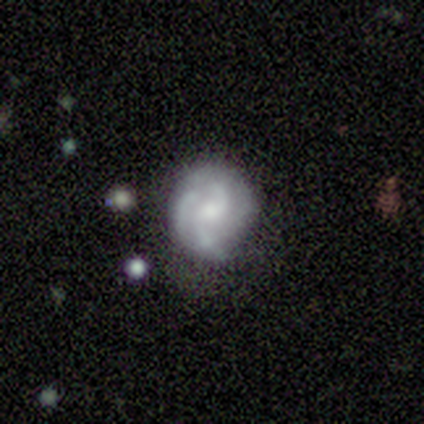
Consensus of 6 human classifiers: Morphology: type=featured or disk (83%); edge-on=no (100%); bar=no (80%); spiral arms=yes (60%); winding=medium (67%); arm count=2 (67%); bulge=moderate (40%, tied with small); merging=none (100%).